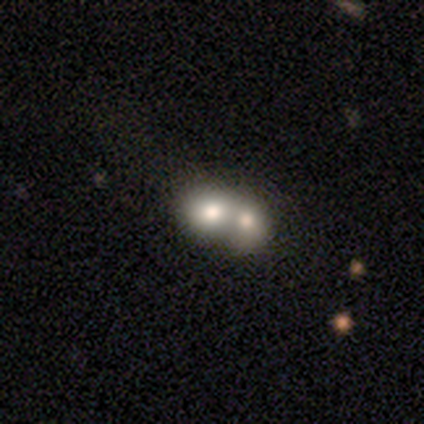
This is likely a smooth galaxy (60%). How rounded: clearly round (100%). Merging: likely merger (75%).